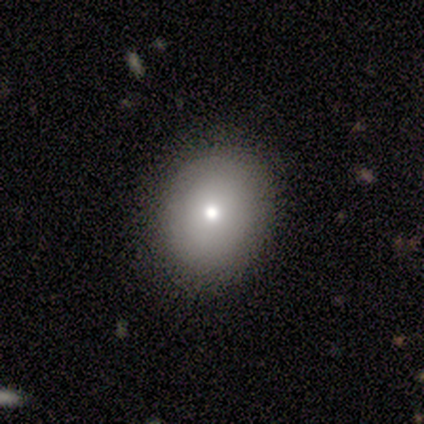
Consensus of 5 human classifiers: Smooth or featured?
  - smooth: 100% *
  - featured or disk: 0%
  - star or artifact: 0%
How rounded?
  - round: 40% * (tied)
  - in between: 40% * (tied)
  - cigar-shaped: 20%
Merging?
  - none: 100% *
  - minor disturbance: 0%
  - major disturbance: 0%
  - merger: 0%